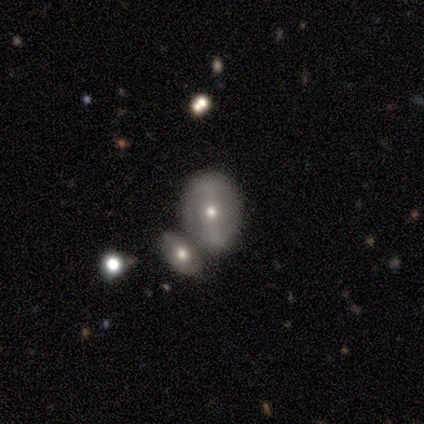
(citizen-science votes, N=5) smooth 40% (tied), star or artifact 40% (tied), featured or disk 20%. Down the decision tree: how rounded — round (50%, tied with in between); merging — merger (67%).